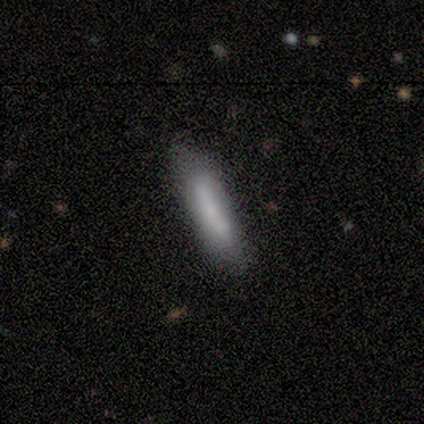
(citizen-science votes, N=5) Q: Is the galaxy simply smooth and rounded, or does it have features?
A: smooth — 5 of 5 (100%).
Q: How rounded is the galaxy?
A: cigar-shaped — 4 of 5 (80%).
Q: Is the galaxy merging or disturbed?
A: none — 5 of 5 (100%).